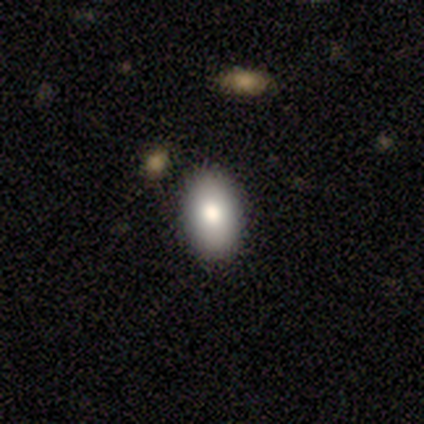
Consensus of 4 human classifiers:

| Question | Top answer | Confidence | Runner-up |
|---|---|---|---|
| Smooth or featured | smooth | 75% | star or artifact (25%) |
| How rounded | in between | 100% | — |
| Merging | none | 100% | — |